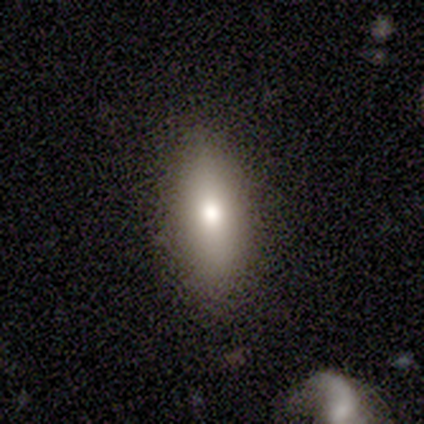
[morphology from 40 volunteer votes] Overall: smooth (62%; featured or disk 28%). How rounded: in between (72%). Merging: none (86%).